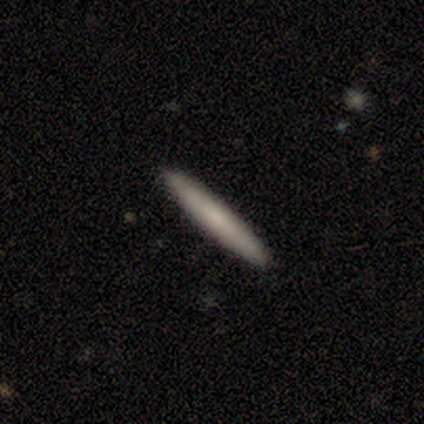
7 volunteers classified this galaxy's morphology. Volunteers were most divided on "smooth or featured": smooth: 71%, featured or disk: 29%, star or artifact: 0%. More confident: how rounded — cigar-shaped (100%); merging — none (86%).